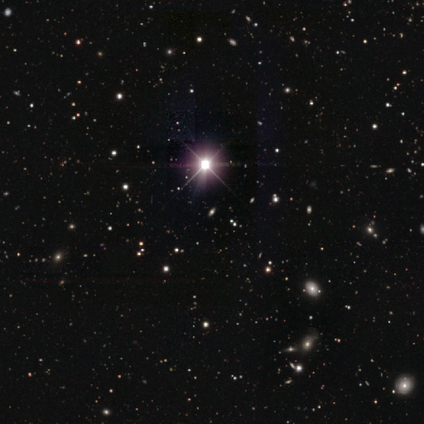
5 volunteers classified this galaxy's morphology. This appears to be a star or artifact, not a galaxy (80%).